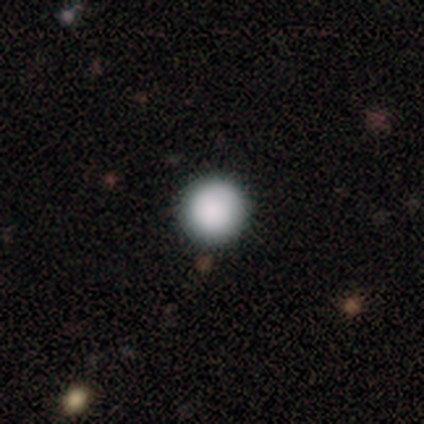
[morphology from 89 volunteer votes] A smooth galaxy with no disk features (89%) that is round (99%). Merging: none (89%).